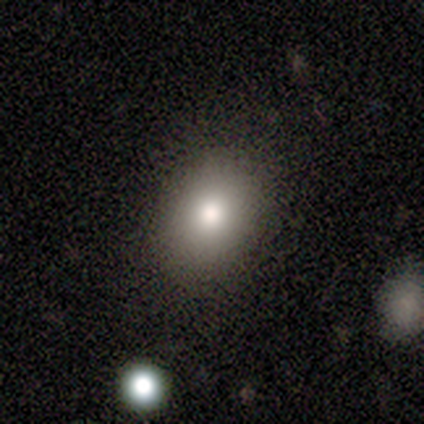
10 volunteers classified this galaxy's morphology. Overall: smooth (80%). How rounded: round (62%; in between 38%). Merging: none (100%).